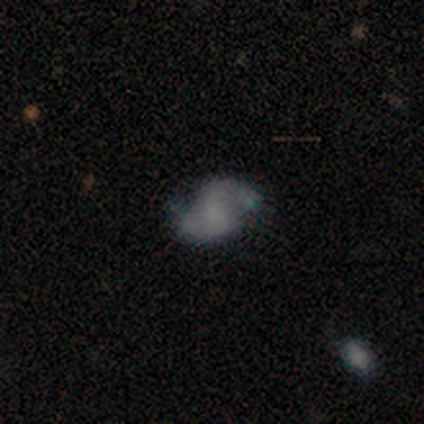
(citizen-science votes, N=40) smooth-or-featured: featured or disk: 70% | smooth: 28% | star or artifact: 2%
  disk-edge-on: no: 96% | yes: 4%
    bar: no: 70% | weak: 26% | strong: 4%
    has-spiral-arms: yes: 96% | no: 4%
      spiral-winding: medium: 54% | loose: 38% | tight: 8%
      spiral-arm-count: 2: 96% | can't tell: 4% | 1: 0% | 3: 0% | 4: 0% | more than 4: 0%
    bulge-size: none: 70% | small: 15% | moderate: 11% | large: 4% | dominant: 0%
  merging: none: 59% | minor disturbance: 21% | major disturbance: 10% | merger: 10%